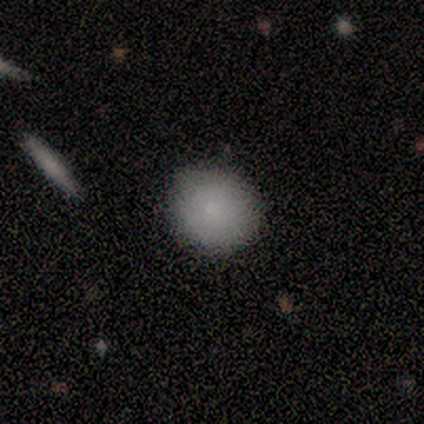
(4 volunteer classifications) This is likely a smooth galaxy (75%). How rounded: likely round (67%). Merging: clearly none (100%).